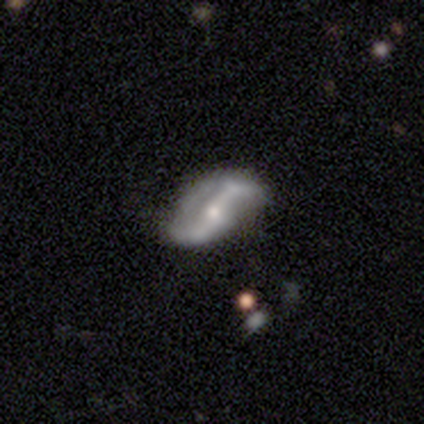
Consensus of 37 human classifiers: featured or disk 89%, star or artifact 11%, smooth 0%. Down the decision tree: edge-on disk — no (97%); bar — strong (56%); spiral arms — yes (88%); spiral arm count — 2 (89%); spiral winding — loose (86%); bulge size — moderate (56%); merging — none (45%).